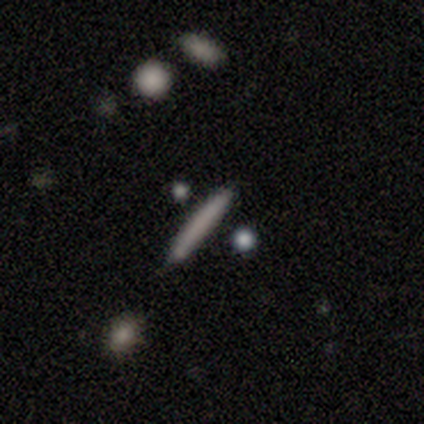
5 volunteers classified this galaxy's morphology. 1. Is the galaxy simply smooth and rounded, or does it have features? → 100% smooth, 0% featured or disk, 0% star or artifact.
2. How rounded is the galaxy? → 100% cigar-shaped, 0% round, 0% in between.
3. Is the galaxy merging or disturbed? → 80% none, 20% major disturbance, 0% minor disturbance, 0% merger.